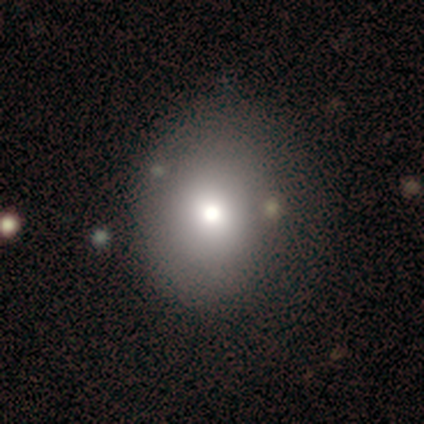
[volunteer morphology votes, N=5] This appears to be a smooth galaxy with no disk features (100%) that is in between round and cigar-shaped (60%). Merging: none (60%).